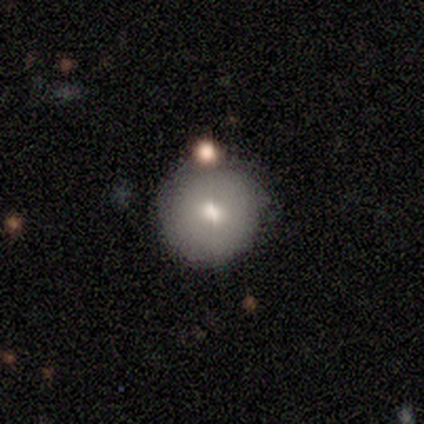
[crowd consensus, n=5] Q: Smooth or featured?
A: smooth (80%); runner-up: featured or disk (20%)
Q: How rounded?
A: round (100%)
Q: Merging?
A: none (100%)